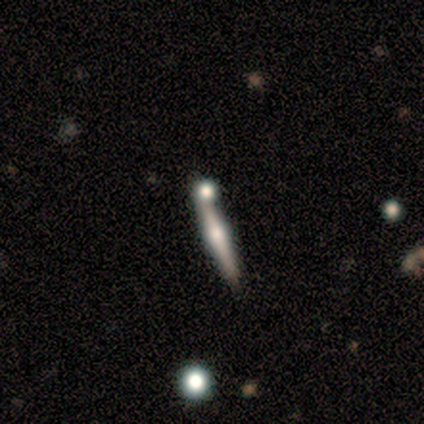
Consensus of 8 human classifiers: This is likely a featured or disk galaxy (62%). It is clearly viewed edge-on (100%). Edge-on bulge: clearly rounded (80%). Merging: likely none (75%).